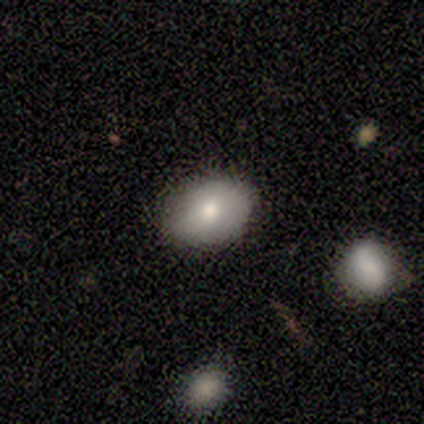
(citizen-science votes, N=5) Smooth or featured?
  - smooth: 100% *
  - featured or disk: 0%
  - star or artifact: 0%
How rounded?
  - in between: 100% *
  - round: 0%
  - cigar-shaped: 0%
Merging?
  - none: 60% *
  - minor disturbance: 40%
  - major disturbance: 0%
  - merger: 0%